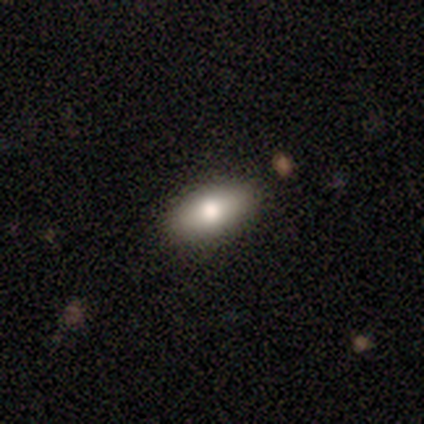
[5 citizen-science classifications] Morphology: type=smooth (80%); roundness=in between (100%); merging=none (80%).